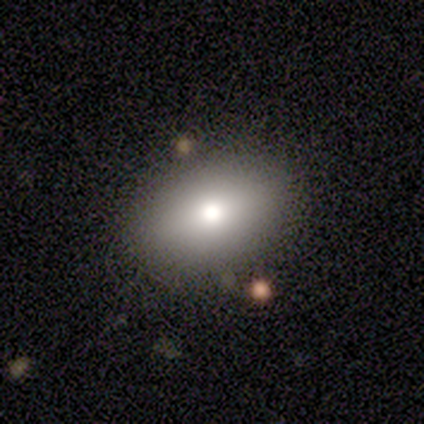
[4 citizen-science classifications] This is possibly a smooth galaxy (50%, tied with featured or disk). How rounded: clearly in between (100%). Merging: clearly none (100%).